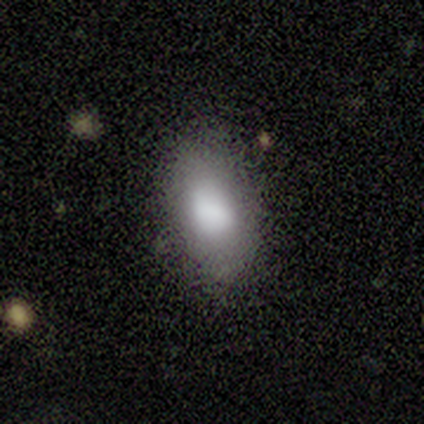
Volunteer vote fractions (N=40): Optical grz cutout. It shows a smooth galaxy with no disk features (85%) that is in between round and cigar-shaped (97%). Merging: none (76%).